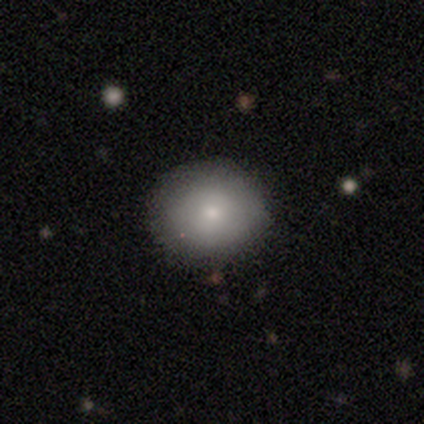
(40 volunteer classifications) This appears to be a smooth galaxy with no disk features (92%) that is round (84%). Merging: none (92%).